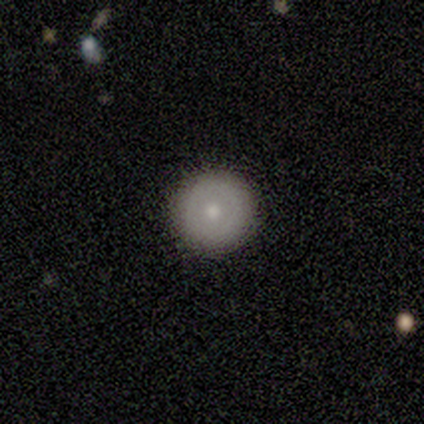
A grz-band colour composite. It shows a smooth galaxy with no disk features (43%, tied with featured or disk) that is round (100%). Merging: none (100%).